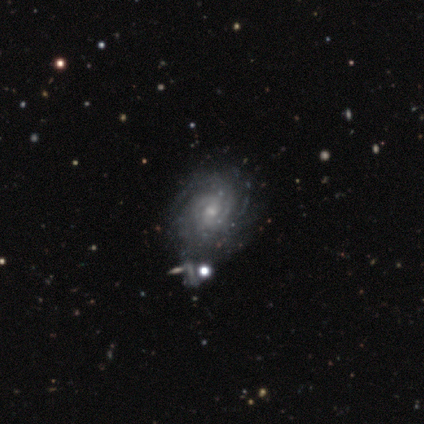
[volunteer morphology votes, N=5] Volunteers were most divided on "bar" (2-way tie): strong: 40%, no: 40%, weak: 20%. More confident: smooth or featured — featured or disk (100%); edge-on disk — no (100%); spiral arms — yes (80%); merging — none (80%); spiral winding — medium (75%); bulge size — small (60%); spiral arm count — 2 (50%).